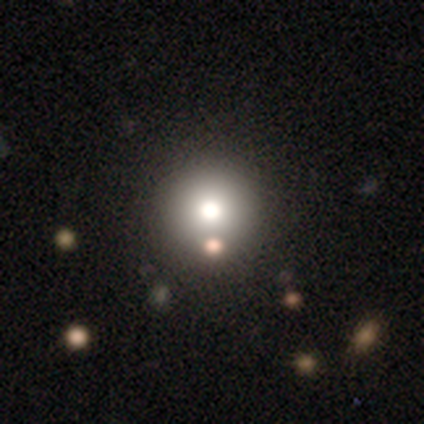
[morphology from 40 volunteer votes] smooth-or-featured: smooth: 62% | featured or disk: 25% | star or artifact: 12%
  how-rounded: round: 92% | in between: 4% | cigar-shaped: 4%
  merging: none: 74% | minor disturbance: 17% | major disturbance: 6% | merger: 3%